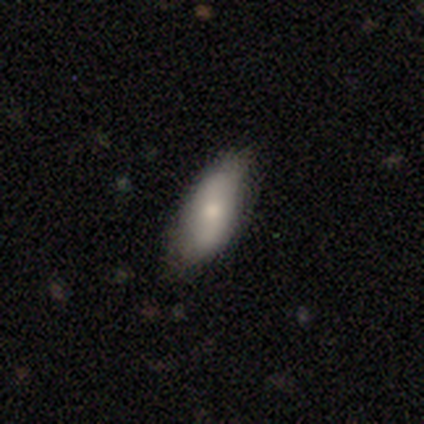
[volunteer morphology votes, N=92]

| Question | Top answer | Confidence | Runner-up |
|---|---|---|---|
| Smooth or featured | smooth | 66% | featured or disk (23%) |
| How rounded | in between | 82% | cigar-shaped (16%) |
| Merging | none | 70% | minor disturbance (28%) |